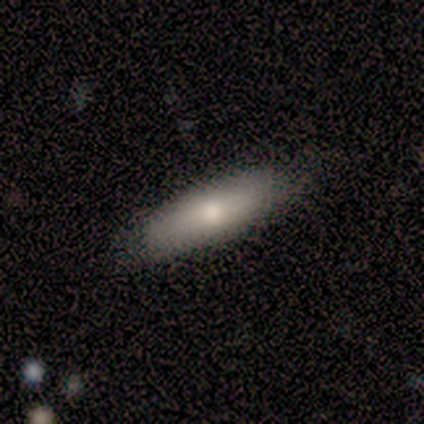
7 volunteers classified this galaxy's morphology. Smooth or featured? smooth (86%)
How rounded? cigar-shaped (50%)
Merging? none (83%)